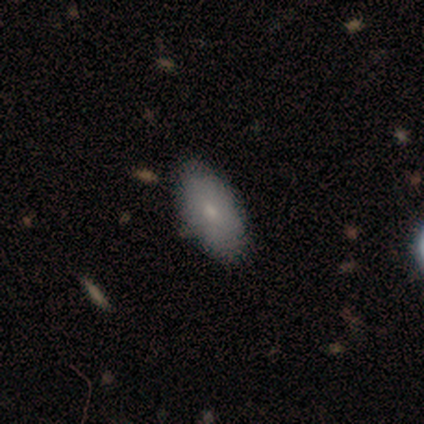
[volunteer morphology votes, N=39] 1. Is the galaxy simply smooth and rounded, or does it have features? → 85% smooth, 8% featured or disk, 8% star or artifact.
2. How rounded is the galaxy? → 85% in between, 9% cigar-shaped, 6% round.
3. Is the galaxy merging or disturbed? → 92% none, 8% minor disturbance, 0% major disturbance, 0% merger.